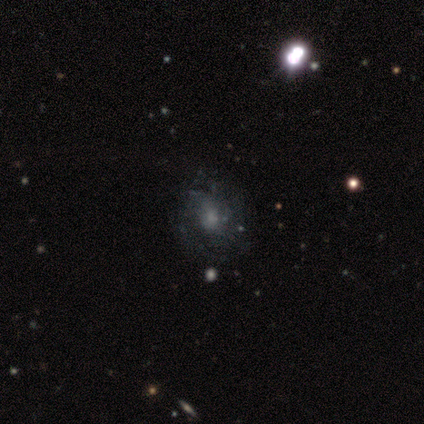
Q: Smooth or featured?
A: featured or disk (57%); runner-up: smooth (21%)
Q: Edge-on disk?
A: no (100%)
Q: Bar?
A: no (75%); runner-up: weak (25%)
Q: Spiral arms?
A: yes (100%)
Q: Spiral winding?
A: medium (75%); runner-up: loose (25%)
Q: Spiral arm count?
A: can't tell (50%); runner-up: 2 (25%)
Q: Bulge size?
A: small (50%); runner-up: moderate (25%)
Q: Merging?
A: none (73%); runner-up: minor disturbance (18%)